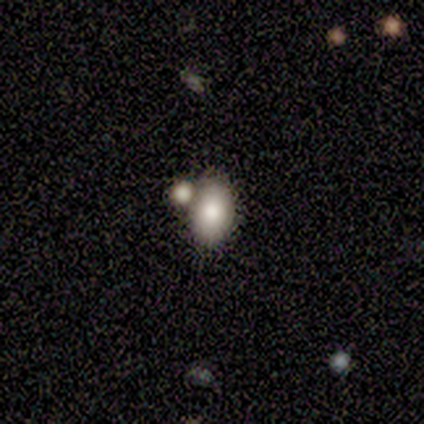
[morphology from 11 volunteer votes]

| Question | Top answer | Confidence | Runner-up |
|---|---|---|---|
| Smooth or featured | smooth | 64% | featured or disk (27%) |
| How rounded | in between | 86% | round (14%) |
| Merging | none | 60% | merger (30%) |